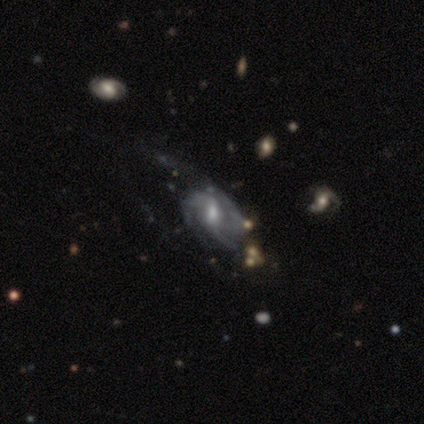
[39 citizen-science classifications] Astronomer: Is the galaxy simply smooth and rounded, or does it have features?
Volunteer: featured or disk — 77%.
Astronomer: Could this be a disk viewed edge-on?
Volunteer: no — 97%.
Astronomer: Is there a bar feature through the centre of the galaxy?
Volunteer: weak — 66%.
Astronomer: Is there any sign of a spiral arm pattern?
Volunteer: yes — 90%.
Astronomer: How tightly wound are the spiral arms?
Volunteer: medium — 69%.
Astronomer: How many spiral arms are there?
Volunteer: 3 — 50% (runner-up: can't tell, 27%).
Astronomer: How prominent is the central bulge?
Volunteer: moderate — 48% (runner-up: small, 31%).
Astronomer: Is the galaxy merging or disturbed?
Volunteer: none — 53% (runner-up: major disturbance, 32%).